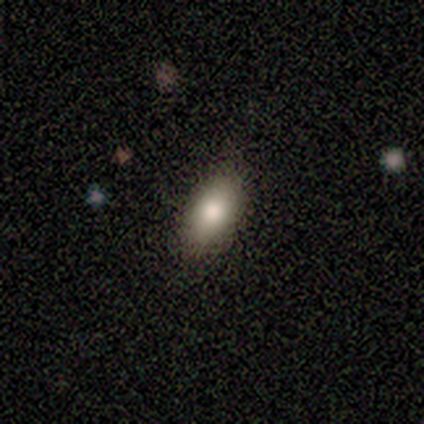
A smooth galaxy with no disk features (95%) that is in between round and cigar-shaped (89%). Merging: none (92%).